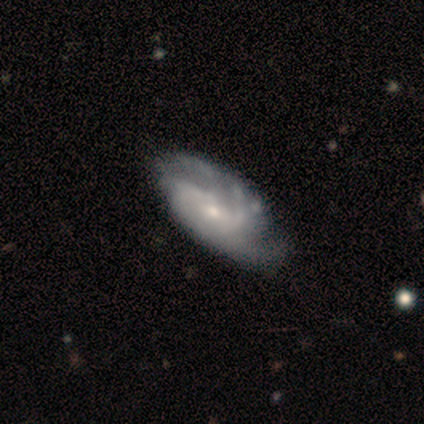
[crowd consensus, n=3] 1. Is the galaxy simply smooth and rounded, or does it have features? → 67% star or artifact, 33% featured or disk, 0% smooth.